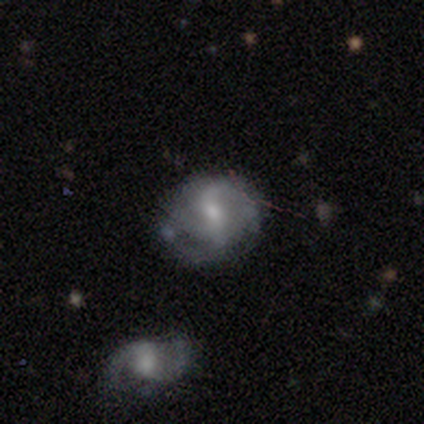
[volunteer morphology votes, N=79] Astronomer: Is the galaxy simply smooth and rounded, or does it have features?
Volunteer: featured or disk — 89%.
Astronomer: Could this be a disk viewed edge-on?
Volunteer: no — 99%.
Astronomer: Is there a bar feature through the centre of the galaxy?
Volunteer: weak — 58%.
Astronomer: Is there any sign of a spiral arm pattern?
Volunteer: yes — 88%.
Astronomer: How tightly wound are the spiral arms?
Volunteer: loose — 43% (runner-up: medium, 36%).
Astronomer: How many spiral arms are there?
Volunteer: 2 — 67%.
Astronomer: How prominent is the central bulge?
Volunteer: moderate — 54% (runner-up: small, 38%).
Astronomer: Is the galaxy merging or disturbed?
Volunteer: minor disturbance — 22% (runner-up: none, 21%).